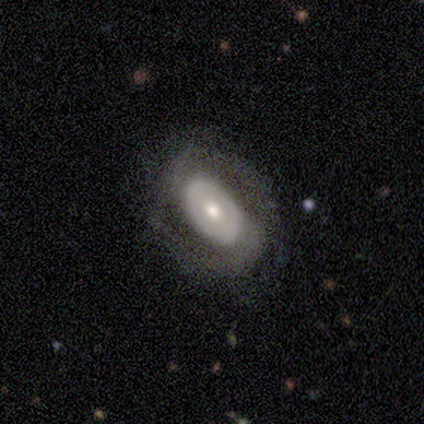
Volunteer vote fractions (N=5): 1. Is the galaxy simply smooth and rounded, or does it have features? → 60% featured or disk, 40% smooth, 0% star or artifact.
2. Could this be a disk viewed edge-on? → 100% no, 0% yes.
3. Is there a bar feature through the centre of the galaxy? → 67% no, 33% strong, 0% weak.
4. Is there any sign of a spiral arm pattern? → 67% no, 33% yes.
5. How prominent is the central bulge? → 67% small, 33% moderate, 0% dominant, 0% large, 0% none.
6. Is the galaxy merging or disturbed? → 100% none, 0% minor disturbance, 0% major disturbance, 0% merger.